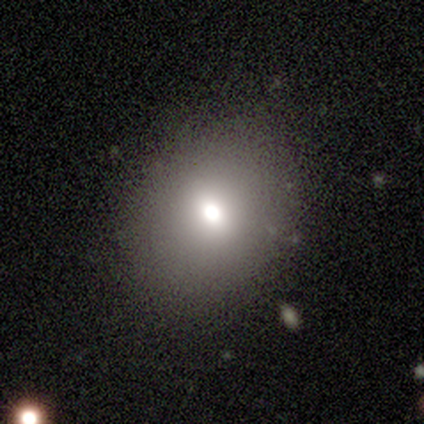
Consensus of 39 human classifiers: Smooth or featured?
  - smooth: 59% *
  - star or artifact: 23%
  - featured or disk: 18%
How rounded?
  - round: 70% *
  - in between: 30%
  - cigar-shaped: 0%
Merging?
  - none: 97% *
  - minor disturbance: 3%
  - major disturbance: 0%
  - merger: 0%